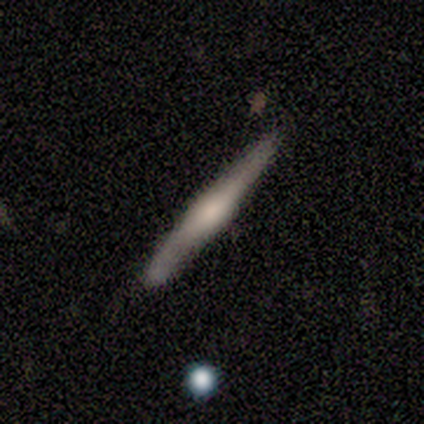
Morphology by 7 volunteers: smooth-or-featured: smooth: 71% | featured or disk: 29% | star or artifact: 0%
  how-rounded: cigar-shaped: 100% | round: 0% | in between: 0%
  merging: none: 100% | minor disturbance: 0% | major disturbance: 0% | merger: 0%